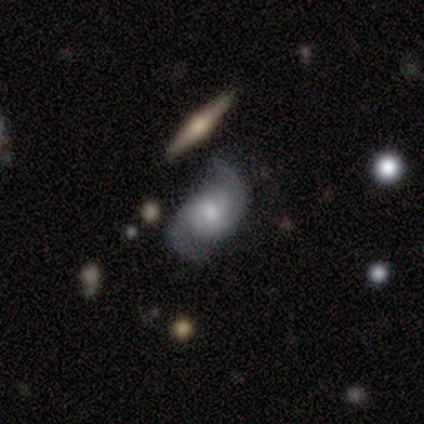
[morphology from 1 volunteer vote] Overall: featured or disk (100%). Edge-on disk: no (100%). Bar: no (100%). Spiral arms: yes (100%). Spiral arm count: 2 (100%). Spiral winding: medium (100%). Bulge size: moderate (100%). Merging: major disturbance (100%).